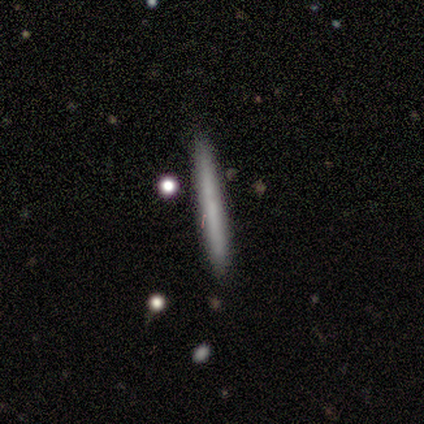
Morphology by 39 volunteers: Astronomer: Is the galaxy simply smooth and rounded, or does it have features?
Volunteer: smooth — 72%.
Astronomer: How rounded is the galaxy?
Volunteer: cigar-shaped — 93%.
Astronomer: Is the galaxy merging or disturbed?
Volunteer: none — 89%.